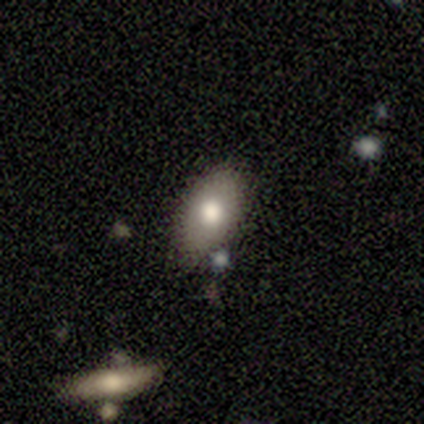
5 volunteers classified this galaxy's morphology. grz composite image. It shows a smooth galaxy with no disk features (100%) that is in between round and cigar-shaped (80%). Merging: none (80%).